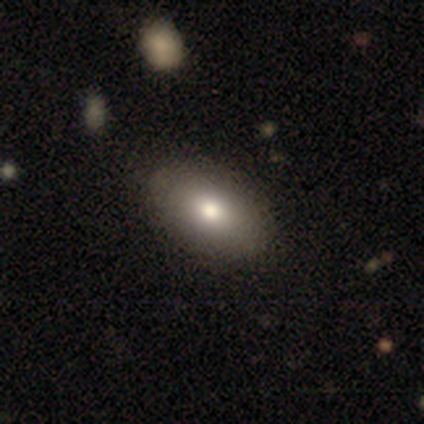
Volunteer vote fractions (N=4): A smooth galaxy with no disk features (75%) that is in between round and cigar-shaped (100%).

Vote fractions:
- Smooth or featured? smooth: 75% / star or artifact: 25% / featured or disk: 0%
- How rounded? in between: 100% / round: 0% / cigar-shaped: 0%
- Merging? none: 67% / minor disturbance: 33% / major disturbance: 0% / merger: 0%